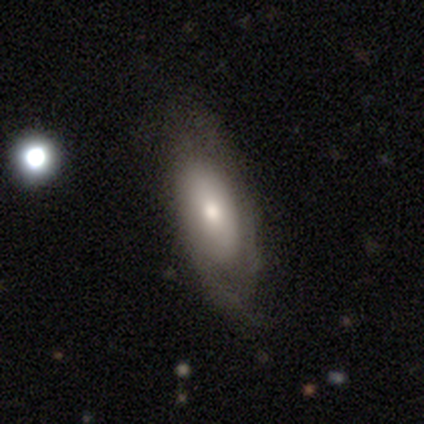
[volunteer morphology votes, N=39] Smooth or featured? 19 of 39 (49%) said featured or disk. Edge-on disk? 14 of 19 (74%) said no. Bar? 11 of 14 (79%) said no. Spiral arms? 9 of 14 (64%) said yes. Spiral winding? 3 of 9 (33%, tied with medium and loose) said tight. Spiral arm count? 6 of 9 (67%) said 2. Bulge size? 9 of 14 (64%) said moderate. Merging? 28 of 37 (76%) said none.